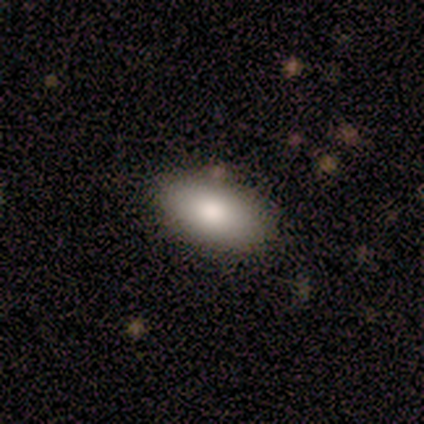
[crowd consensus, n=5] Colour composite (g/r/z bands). It shows a smooth galaxy with no disk features (60%) that is in between round and cigar-shaped (100%). Merging: none (100%).